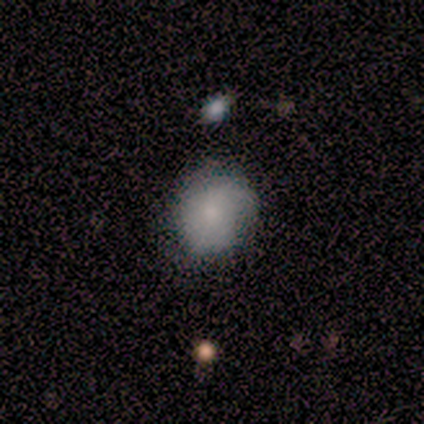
Q: Smooth or featured?
A: smooth (60%); runner-up: featured or disk (40%)
Q: How rounded?
A: round (100%)
Q: Merging?
A: none (40%); tied with: minor disturbance (40%)